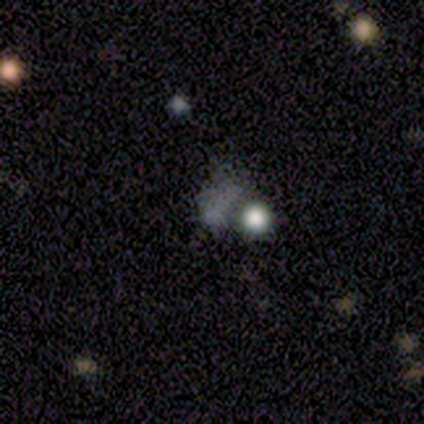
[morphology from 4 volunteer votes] smooth-or-featured: featured or disk: 75% | star or artifact: 25% | smooth: 0%
  disk-edge-on: no: 100% | yes: 0%
    bar: no: 100% | strong: 0% | weak: 0%
    has-spiral-arms: no: 100% | yes: 0%
    bulge-size: none: 100% | dominant: 0% | large: 0% | moderate: 0% | small: 0%
  merging: major disturbance: 67% | none: 33% | minor disturbance: 0% | merger: 0%